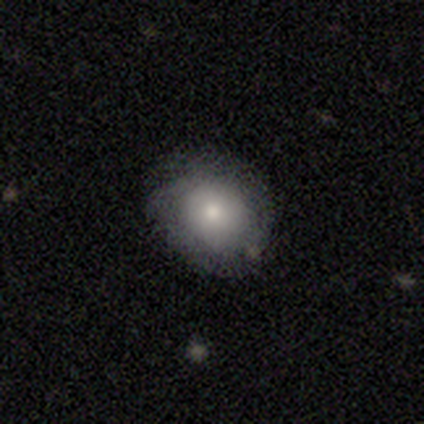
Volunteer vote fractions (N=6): Q: Smooth or featured?
A: smooth (83%); runner-up: featured or disk (17%)
Q: How rounded?
A: round (80%); runner-up: in between (20%)
Q: Merging?
A: none (67%); runner-up: minor disturbance (33%)